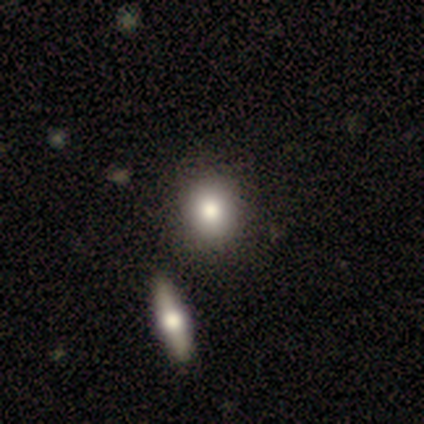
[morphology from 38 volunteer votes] A smooth galaxy with no disk features (76%) that is round (69%). Merging: none (56%).